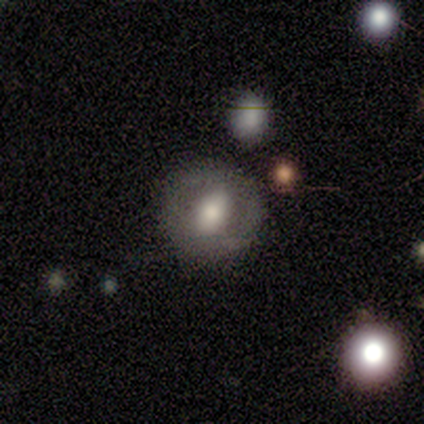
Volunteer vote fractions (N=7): smooth-or-featured: featured or disk: 57% | smooth: 43% | star or artifact: 0%
  disk-edge-on: no: 100% | yes: 0%
    bar: weak: 75% | no: 25% | strong: 0%
    has-spiral-arms: no: 100% | yes: 0%
    bulge-size: moderate: 50% | large: 25% | none: 25% | dominant: 0% | small: 0%
  merging: none: 86% | minor disturbance: 14% | major disturbance: 0% | merger: 0%